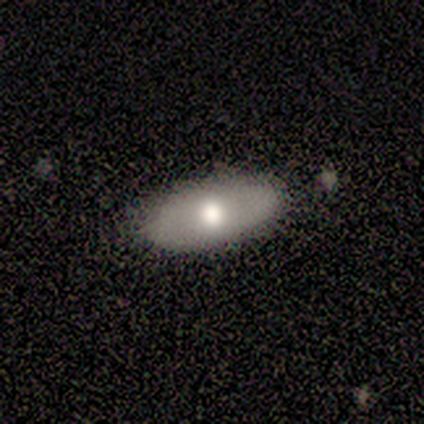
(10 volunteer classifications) Smooth or featured?
  - smooth: 50% * (tied)
  - featured or disk: 50% * (tied)
  - star or artifact: 0%
How rounded?
  - in between: 100% *
  - round: 0%
  - cigar-shaped: 0%
Merging?
  - none: 100% *
  - minor disturbance: 0%
  - major disturbance: 0%
  - merger: 0%